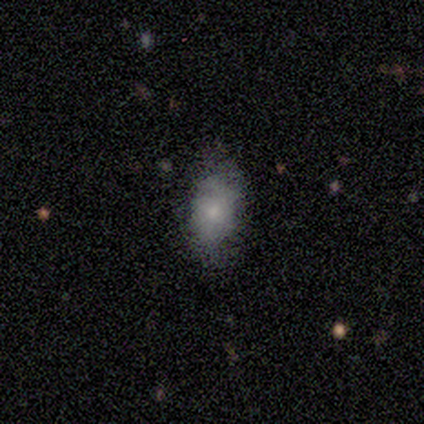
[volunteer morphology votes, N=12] Q: Smooth or featured?
A: smooth (83%); runner-up: star or artifact (17%)
Q: How rounded?
A: in between (90%); runner-up: round (10%)
Q: Merging?
A: none (90%); runner-up: minor disturbance (10%)